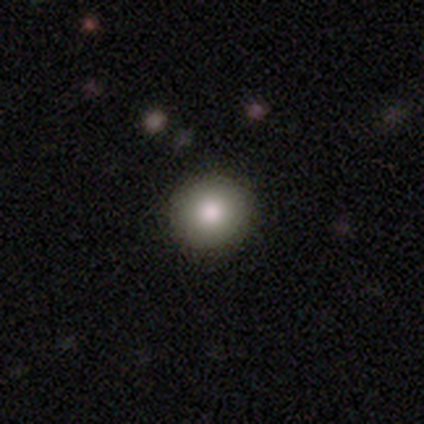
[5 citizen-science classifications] Smooth or featured: smooth — 80% (featured or disk — 20%)
How rounded: round — 100%
Merging: none — 100%